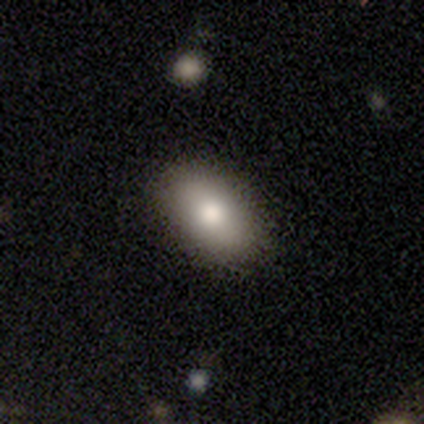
Smooth or featured?
  - smooth: 86% *
  - featured or disk: 11%
  - star or artifact: 3%
How rounded?
  - in between: 92% *
  - round: 5%
  - cigar-shaped: 2%
Merging?
  - none: 88% *
  - minor disturbance: 8%
  - major disturbance: 4%
  - merger: 0%